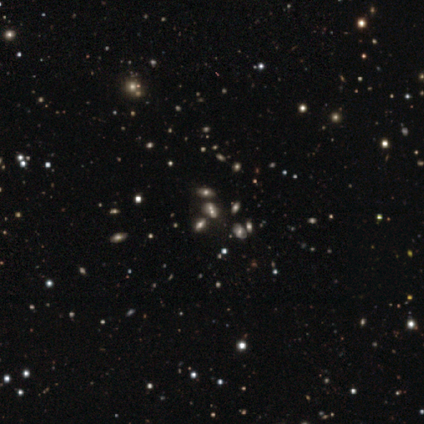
Morphology: type=smooth (47%); roundness=in between (71%); merging=none (50%, tied with merger).